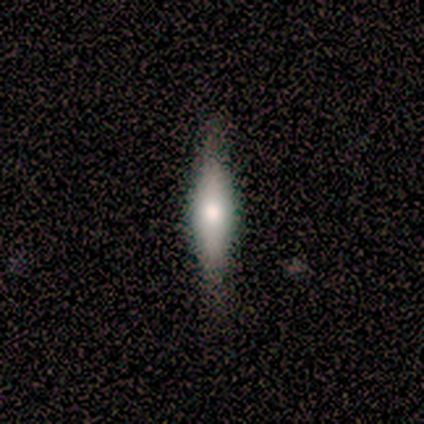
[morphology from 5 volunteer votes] Q: Smooth or featured?
A: smooth (60%); runner-up: featured or disk (40%)
Q: How rounded?
A: cigar-shaped (67%); runner-up: in between (33%)
Q: Merging?
A: none (100%)